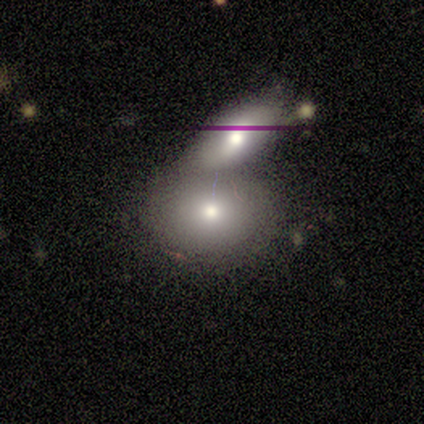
Volunteers were most divided on "how rounded": in between: 75%, round: 25%, cigar-shaped: 0%. More confident: smooth or featured — smooth (80%); merging — merger (75%).